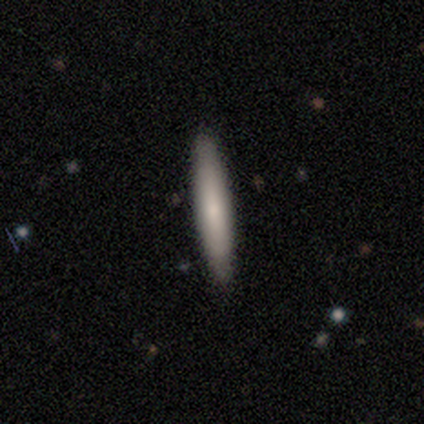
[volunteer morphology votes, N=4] type=smooth (75%); roundness=cigar-shaped (100%); merging=none (100%).